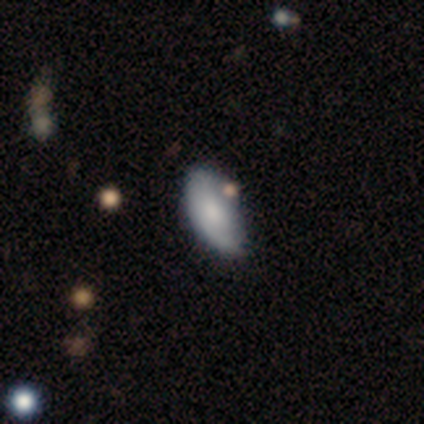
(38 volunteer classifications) Overall: smooth (68%; featured or disk 29%). How rounded: in between (96%). Merging: none (43%; minor disturbance 35%).